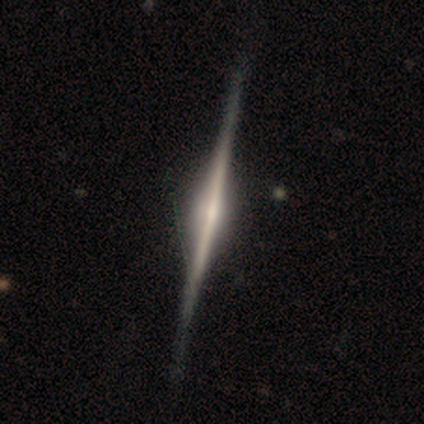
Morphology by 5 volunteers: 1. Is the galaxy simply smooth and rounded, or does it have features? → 100% featured or disk, 0% smooth, 0% star or artifact.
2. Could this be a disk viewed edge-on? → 100% yes, 0% no.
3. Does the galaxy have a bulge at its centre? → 80% rounded, 20% boxy, 0% none.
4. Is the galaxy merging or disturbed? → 80% none, 20% minor disturbance, 0% major disturbance, 0% merger.